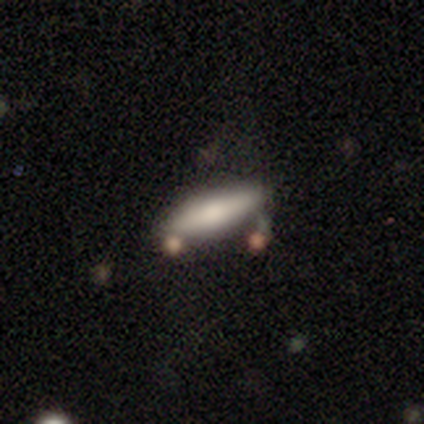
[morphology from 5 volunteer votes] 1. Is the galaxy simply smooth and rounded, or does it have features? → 80% smooth, 20% featured or disk, 0% star or artifact.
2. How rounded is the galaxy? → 75% cigar-shaped, 25% in between, 0% round.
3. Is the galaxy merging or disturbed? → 80% none, 20% major disturbance, 0% minor disturbance, 0% merger.